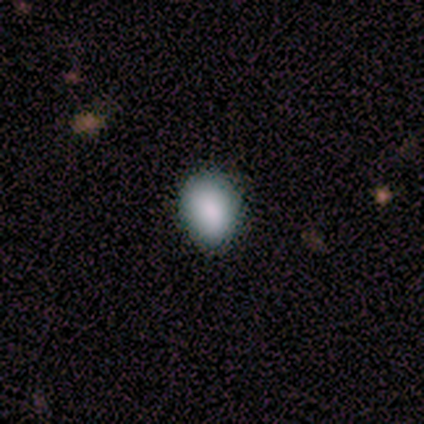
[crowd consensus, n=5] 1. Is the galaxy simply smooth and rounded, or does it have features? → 80% smooth, 20% star or artifact, 0% featured or disk.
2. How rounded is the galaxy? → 75% in between, 25% round, 0% cigar-shaped.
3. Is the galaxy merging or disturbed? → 50% none (tied), 50% minor disturbance (tied), 0% major disturbance, 0% merger.